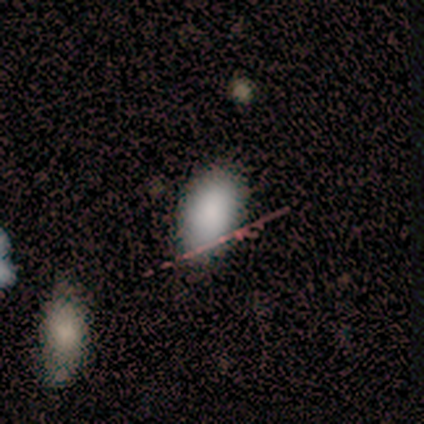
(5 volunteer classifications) Smooth or featured? 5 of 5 (100%) said smooth. How rounded? 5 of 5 (100%) said in between. Merging? 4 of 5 (80%) said none.